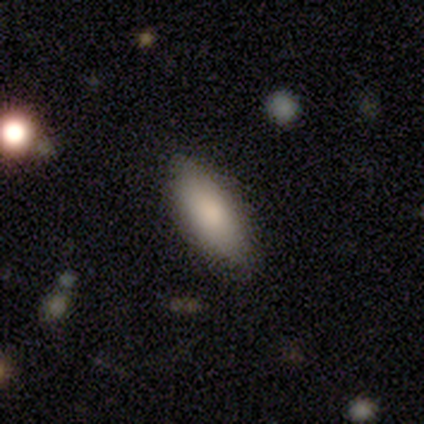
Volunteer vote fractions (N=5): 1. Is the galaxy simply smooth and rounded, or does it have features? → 80% smooth, 20% featured or disk, 0% star or artifact.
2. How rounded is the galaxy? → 100% in between, 0% round, 0% cigar-shaped.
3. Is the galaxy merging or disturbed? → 100% none, 0% minor disturbance, 0% major disturbance, 0% merger.